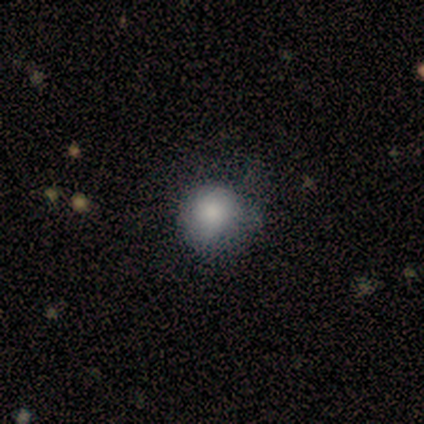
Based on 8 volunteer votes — smooth_or_featured: smooth (p=1.00)
how_rounded: round (p=0.88) [alt: in between p=0.12]
merging: none (p=0.62) [alt: minor disturbance p=0.38]